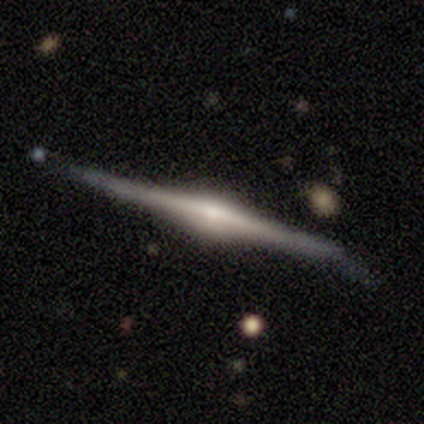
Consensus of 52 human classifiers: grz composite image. It shows a featured or disk galaxy (98%) viewed edge-on (100%) with a rounded central bulge (90%). Merging: none (67%).